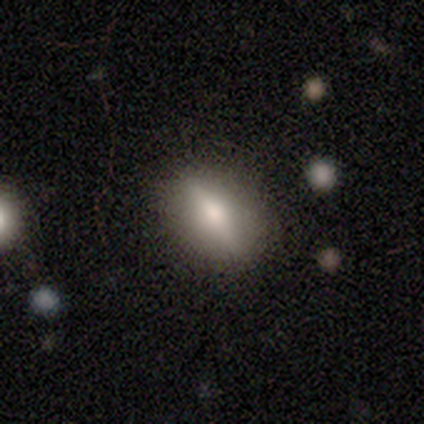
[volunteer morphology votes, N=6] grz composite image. It shows a smooth galaxy with no disk features (50%, tied with featured or disk) that is in between round and cigar-shaped (100%). Merging: none (100%).